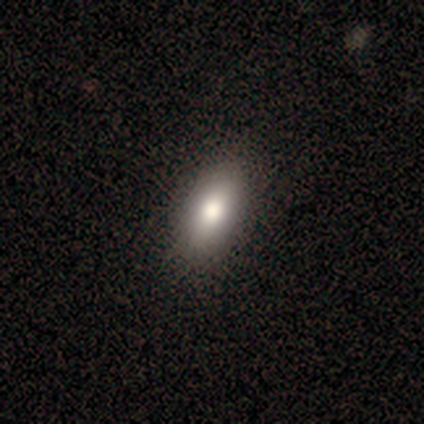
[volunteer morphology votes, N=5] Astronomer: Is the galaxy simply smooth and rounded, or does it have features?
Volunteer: smooth — 60% (runner-up: star or artifact, 40%).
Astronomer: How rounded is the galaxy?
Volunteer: in between — 100%.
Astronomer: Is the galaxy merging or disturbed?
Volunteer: none — 100%.